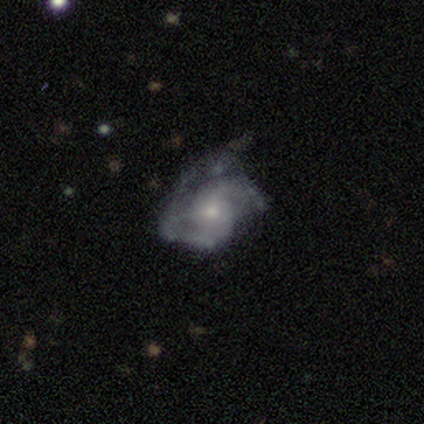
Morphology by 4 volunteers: This is likely a featured or disk galaxy (75%). It is clearly not viewed edge-on (100%). Bar: clearly no (100%). Spiral arm pattern: clearly yes (100%). Spiral arm count: likely 2 (67%). Spiral winding: likely tight (67%). Central bulge: clearly small (100%). Merging: possibly minor disturbance (50%).